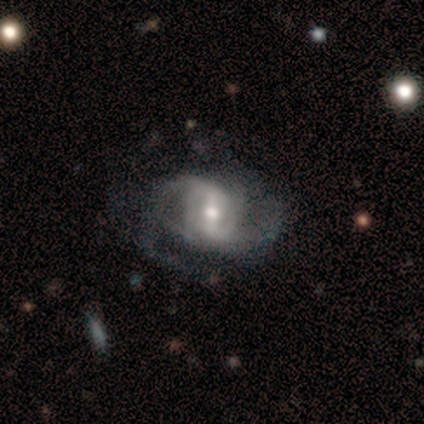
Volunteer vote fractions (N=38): This appears to be a featured or disk galaxy (92%) with a strong bar (56%), 2 (48%) medium (55%) spiral arms (97%) and a moderate central bulge (71%). Merging: none (50%).